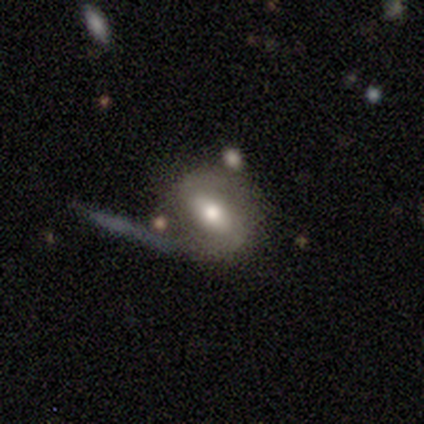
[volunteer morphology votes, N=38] Smooth or featured?
  - featured or disk: 50% *
  - smooth: 45%
  - star or artifact: 5%
Edge-on disk?
  - no: 89% *
  - yes: 11%
Bar?
  - strong: 53% *
  - weak: 35%
  - no: 12%
Spiral arms?
  - yes: 53% *
  - no: 47%
Spiral winding?
  - medium: 89% *
  - loose: 11%
  - tight: 0%
Spiral arm count?
  - 2: 78% *
  - 1: 11%
  - can't tell: 11%
  - 3: 0%
  - 4: 0%
  - more than 4: 0%
Bulge size?
  - moderate: 59% *
  - large: 24%
  - small: 12%
  - dominant: 6%
  - none: 0%
Merging?
  - none: 56% *
  - minor disturbance: 25%
  - major disturbance: 11%
  - merger: 8%